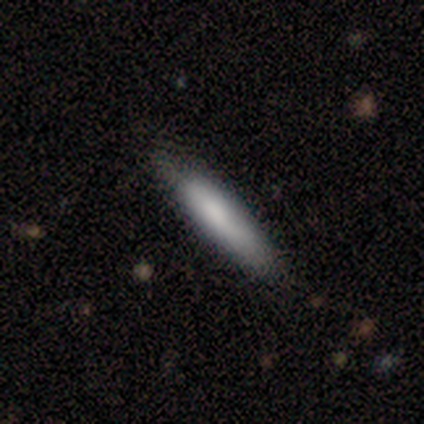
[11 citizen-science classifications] This appears to be a smooth galaxy with no disk features (73%) that is cigar-shaped (88%). Merging: none (80%).